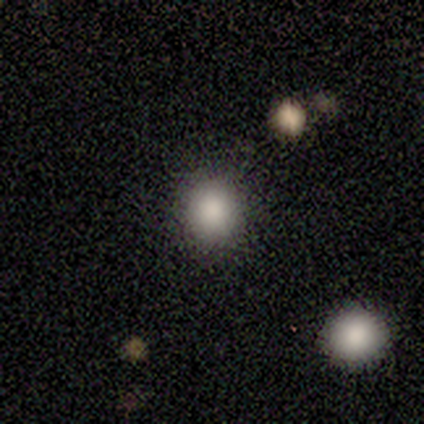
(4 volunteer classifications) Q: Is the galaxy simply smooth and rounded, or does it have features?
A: smooth — 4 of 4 (100%).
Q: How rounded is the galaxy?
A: round — 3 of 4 (75%).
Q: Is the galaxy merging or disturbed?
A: none — 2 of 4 (50%).